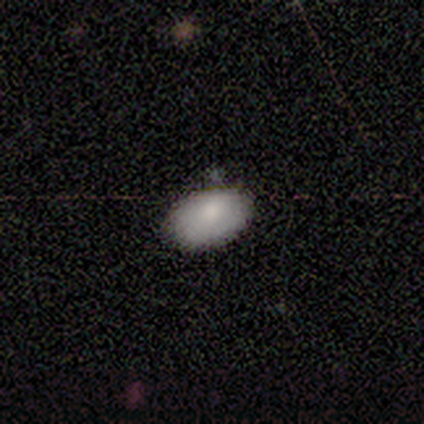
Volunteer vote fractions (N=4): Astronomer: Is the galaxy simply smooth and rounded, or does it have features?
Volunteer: smooth — 100%.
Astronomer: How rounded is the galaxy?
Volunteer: in between — 100%.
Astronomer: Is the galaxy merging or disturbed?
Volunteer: none — 100%.